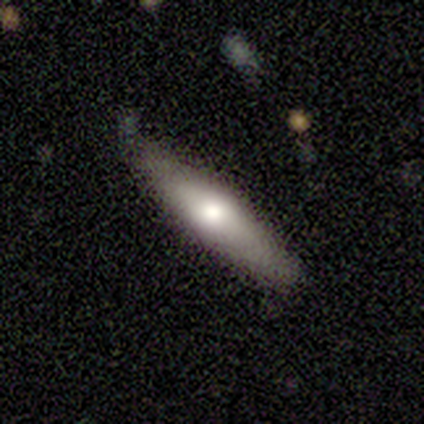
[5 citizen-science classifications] smooth-or-featured: smooth: 60% | featured or disk: 40% | star or artifact: 0%
  how-rounded: cigar-shaped: 67% | in between: 33% | round: 0%
  merging: none: 80% | minor disturbance: 20% | major disturbance: 0% | merger: 0%